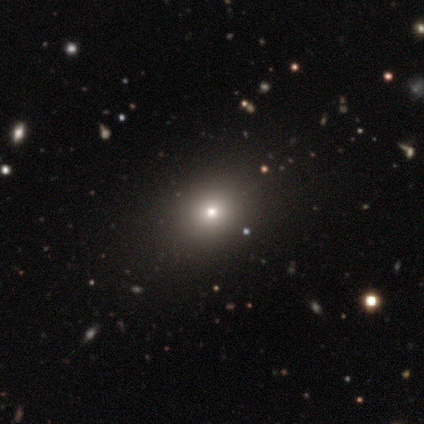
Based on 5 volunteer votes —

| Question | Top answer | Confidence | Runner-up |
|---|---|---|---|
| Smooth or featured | smooth | 80% | star or artifact (20%) |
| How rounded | round | 75% | in between (25%) |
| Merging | none | 100% | — |